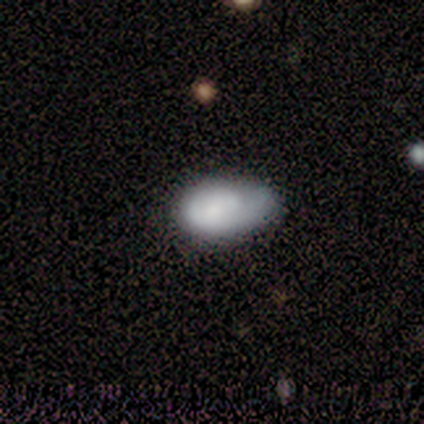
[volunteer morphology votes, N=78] Overall: smooth (67%; featured or disk 31%). How rounded: in between (98%). Merging: minor disturbance (28%; none 18%).